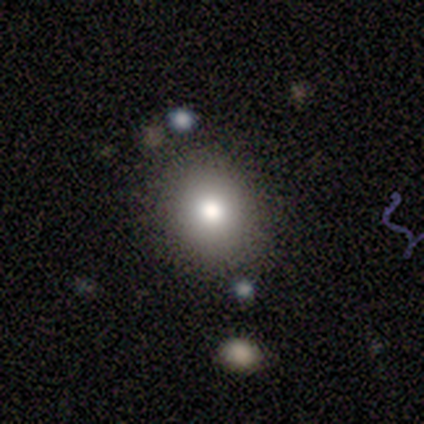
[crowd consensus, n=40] smooth_or_featured: smooth (p=0.68) [alt: featured or disk p=0.17]
how_rounded: round (p=0.63) [alt: in between p=0.37]
merging: none (p=0.79) [alt: minor disturbance p=0.15]